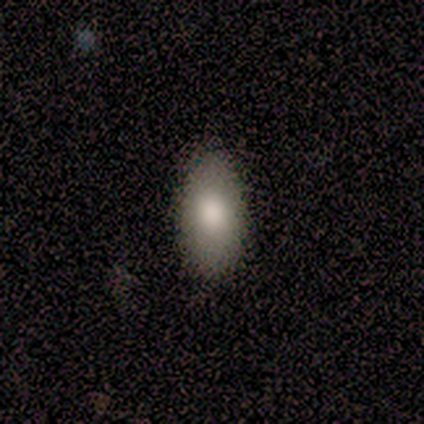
Volunteers were most divided on "merging": none: 80%, minor disturbance: 20%, major disturbance: 0%, merger: 0%. More confident: smooth or featured — smooth (100%); how rounded — in between (100%).